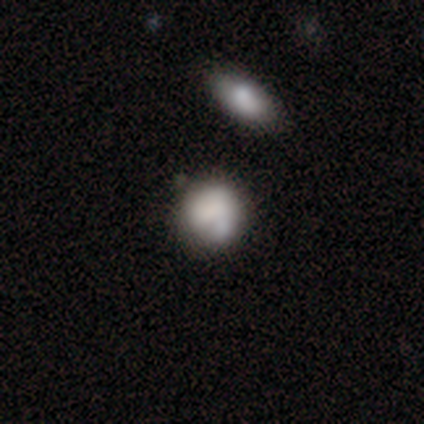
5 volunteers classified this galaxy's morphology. Smooth or featured? smooth (80%)
How rounded? round (75%)
Merging? none (80%)